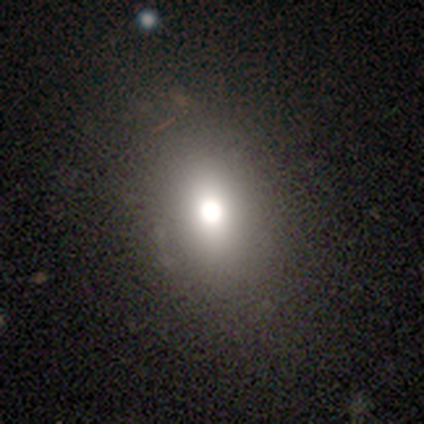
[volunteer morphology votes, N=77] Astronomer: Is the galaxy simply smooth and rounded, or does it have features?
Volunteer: smooth — 73%.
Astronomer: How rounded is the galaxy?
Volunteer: in between — 57% (runner-up: round, 41%).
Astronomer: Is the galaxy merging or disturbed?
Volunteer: none — 53%.